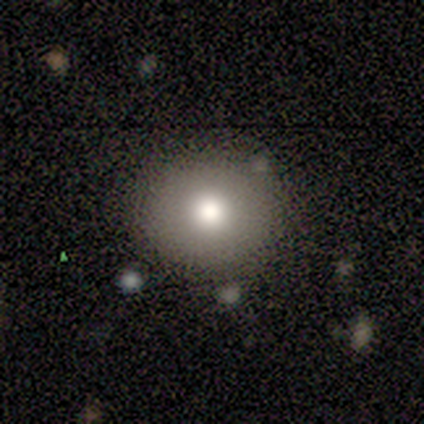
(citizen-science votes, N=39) smooth 77%, featured or disk 15%, star or artifact 8%. Down the decision tree: how rounded — round (93%); merging — none (92%).